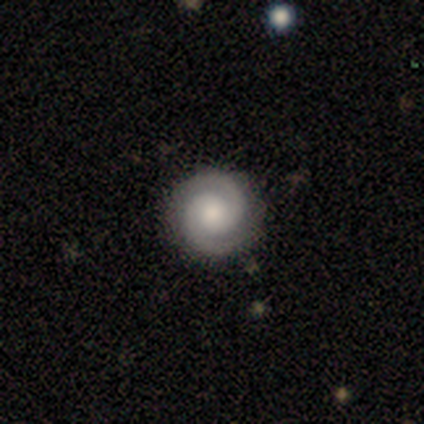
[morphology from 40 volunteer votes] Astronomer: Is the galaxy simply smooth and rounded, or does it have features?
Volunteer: featured or disk — 78%.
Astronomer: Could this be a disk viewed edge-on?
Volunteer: no — 94%.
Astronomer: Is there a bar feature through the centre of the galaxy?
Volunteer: no — 86%.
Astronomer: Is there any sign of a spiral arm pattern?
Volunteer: yes — 100%.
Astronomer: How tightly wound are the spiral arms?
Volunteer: tight — 86%.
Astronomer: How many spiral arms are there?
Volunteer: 2 — 100%.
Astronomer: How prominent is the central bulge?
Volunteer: moderate — 55%.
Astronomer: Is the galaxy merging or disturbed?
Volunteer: none — 89%.